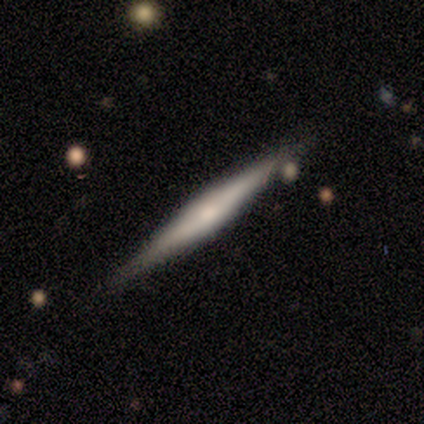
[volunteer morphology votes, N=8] smooth-or-featured: smooth: 62% | featured or disk: 25% | star or artifact: 12%
  how-rounded: cigar-shaped: 100% | round: 0% | in between: 0%
  merging: none: 71% | minor disturbance: 29% | major disturbance: 0% | merger: 0%